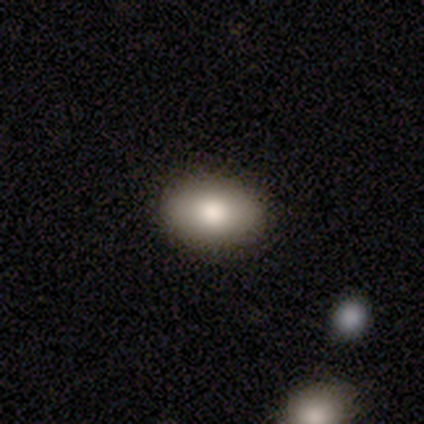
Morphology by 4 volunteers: Overall: smooth (75%). How rounded: in between (67%; round 33%). Merging: none (100%).